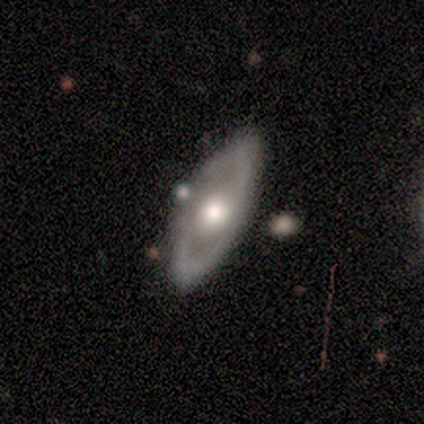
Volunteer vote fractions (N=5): smooth-or-featured: featured or disk: 80% | smooth: 20% | star or artifact: 0%
  disk-edge-on: no: 75% | yes: 25%
    bar: no: 67% | weak: 33% | strong: 0%
    has-spiral-arms: no: 67% | yes: 33%
    bulge-size: moderate: 100% | dominant: 0% | large: 0% | small: 0% | none: 0%
  merging: none: 100% | minor disturbance: 0% | major disturbance: 0% | merger: 0%